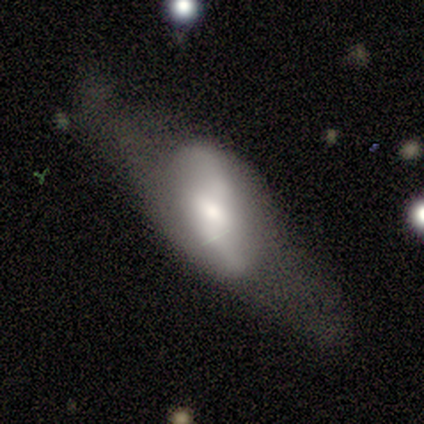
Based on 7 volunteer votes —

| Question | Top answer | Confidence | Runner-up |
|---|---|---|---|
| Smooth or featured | featured or disk | 86% | smooth (14%) |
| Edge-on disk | no | 83% | yes (17%) |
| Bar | weak | 60% | strong (20%) |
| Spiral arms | yes | 80% | no (20%) |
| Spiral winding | loose | 75% | medium (25%) |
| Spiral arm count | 2 | 100% | — |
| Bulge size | moderate | 60% | large (40%) |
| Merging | major disturbance | 43% | minor disturbance (29%) |